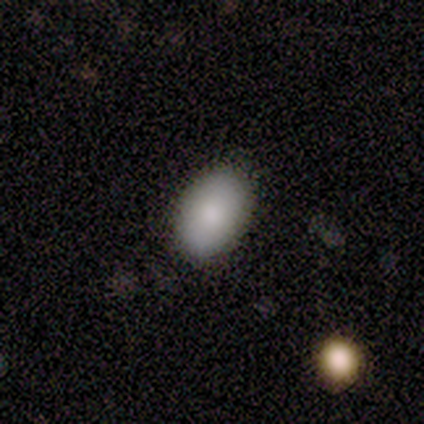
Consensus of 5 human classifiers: Smooth or featured? 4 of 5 (80%) said smooth. How rounded? 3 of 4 (75%) said in between. Merging? 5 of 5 (100%) said none.